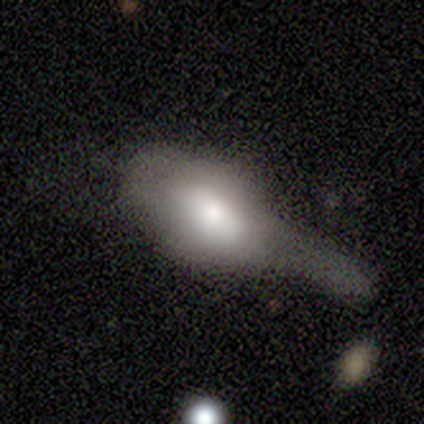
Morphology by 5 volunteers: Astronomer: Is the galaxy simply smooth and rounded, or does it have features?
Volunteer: featured or disk — 60%.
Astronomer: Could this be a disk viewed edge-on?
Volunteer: no — 67%.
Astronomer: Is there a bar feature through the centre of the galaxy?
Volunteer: weak — 50%, tied with no at 50%.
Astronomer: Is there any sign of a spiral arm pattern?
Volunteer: no — 100%.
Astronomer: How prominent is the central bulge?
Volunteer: moderate — 100%.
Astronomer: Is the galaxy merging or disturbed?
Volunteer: major disturbance — 50%.